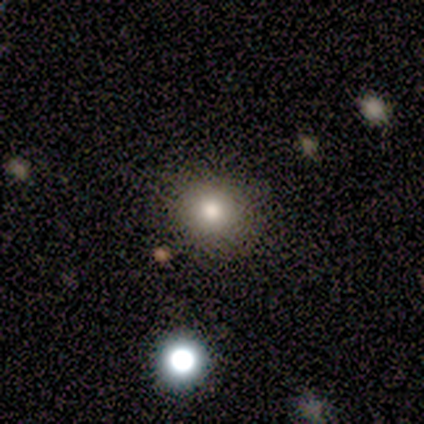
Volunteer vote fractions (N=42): Smooth or featured?
  - smooth: 74% *
  - star or artifact: 19%
  - featured or disk: 7%
How rounded?
  - round: 87% *
  - in between: 13%
  - cigar-shaped: 0%
Merging?
  - none: 94% *
  - minor disturbance: 3%
  - merger: 3%
  - major disturbance: 0%